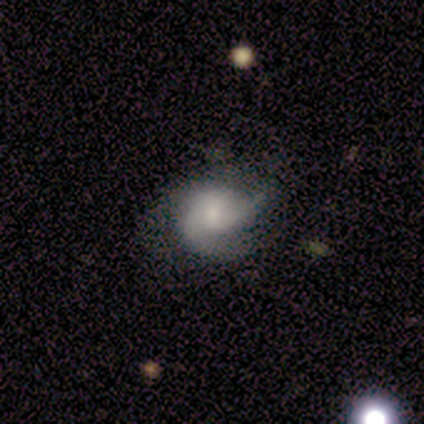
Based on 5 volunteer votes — smooth-or-featured: featured or disk: 60% | star or artifact: 40% | smooth: 0%
  disk-edge-on: no: 100% | yes: 0%
    bar: weak: 67% | no: 33% | strong: 0%
    has-spiral-arms: yes: 100% | no: 0%
      spiral-winding: medium: 67% | loose: 33% | tight: 0%
      spiral-arm-count: 3: 67% | 2: 33% | 1: 0% | 4: 0% | more than 4: 0% | can't tell: 0%
    bulge-size: small: 67% | large: 33% | dominant: 0% | moderate: 0% | none: 0%
  merging: none: 100% | minor disturbance: 0% | major disturbance: 0% | merger: 0%